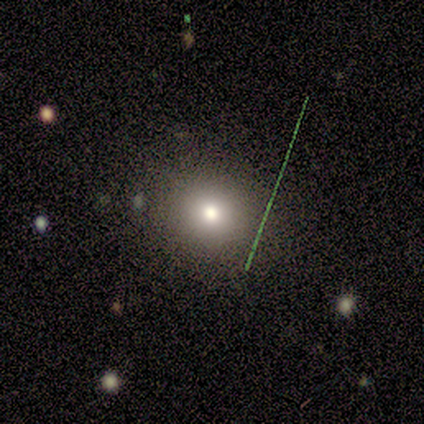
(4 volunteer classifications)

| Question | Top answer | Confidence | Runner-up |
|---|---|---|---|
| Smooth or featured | smooth | 75% | featured or disk (25%) |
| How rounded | round | 67% | in between (33%) |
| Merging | none | 75% | major disturbance (25%) |